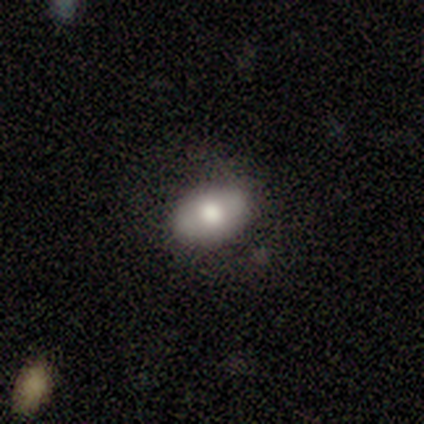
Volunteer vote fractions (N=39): Morphology: type=smooth (77%); roundness=in between (87%); merging=none (68%).